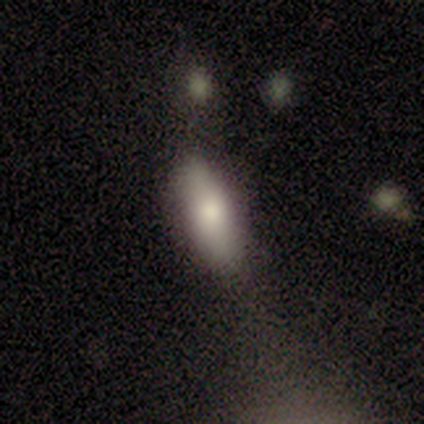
smooth 100%, featured or disk 0%, star or artifact 0%. Down the decision tree: how rounded — in between (40%, tied with cigar-shaped); merging — none (60%).